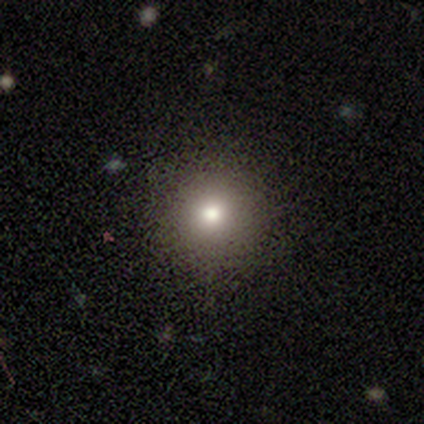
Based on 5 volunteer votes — Overall: smooth (40%, tied with star or artifact). How rounded: round (100%). Merging: none (100%).